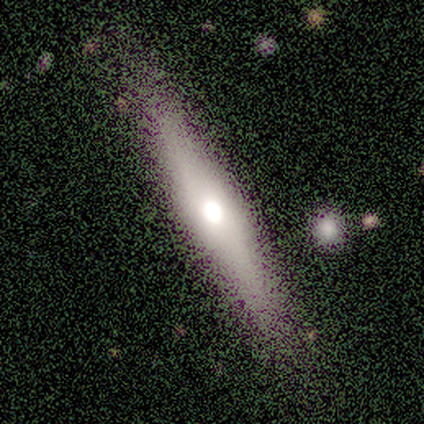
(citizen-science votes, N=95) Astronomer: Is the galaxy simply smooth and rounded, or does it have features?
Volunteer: featured or disk — 62%.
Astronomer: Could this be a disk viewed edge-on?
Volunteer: yes — 88%.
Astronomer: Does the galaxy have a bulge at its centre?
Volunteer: rounded — 90%.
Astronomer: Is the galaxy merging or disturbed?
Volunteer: none — 80%.